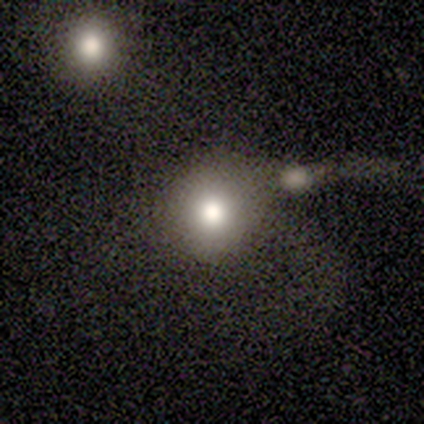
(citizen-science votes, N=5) Smooth or featured: smooth — 100%
How rounded: round — 100%
Merging: none — 40% (tied with merger — 40%)